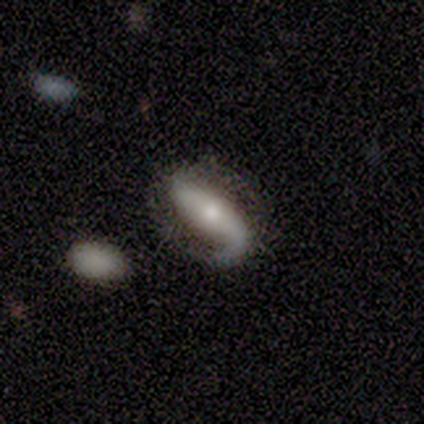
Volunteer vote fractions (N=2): Volunteers were most divided on "spiral winding" (2-way tie): medium: 50%, loose: 50%, tight: 0%; "spiral arm count" (2-way tie): 1: 50%, 2: 50%, 3: 0%, 4: 0%, more than 4: 0%, can't tell: 0%; "bulge size" (2-way tie): moderate: 50%, small: 50%, dominant: 0%, large: 0%, none: 0%. More confident: smooth or featured — featured or disk (100%); edge-on disk — no (100%); bar — no (100%); spiral arms — yes (100%); merging — none (100%).